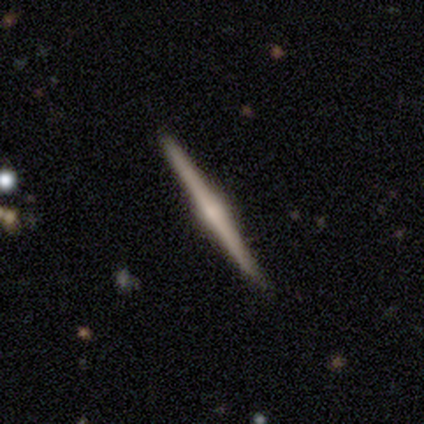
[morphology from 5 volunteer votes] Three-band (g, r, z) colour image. It shows a featured or disk galaxy (80%) viewed edge-on (100%) with a rounded central bulge (75%). Merging: none (80%).